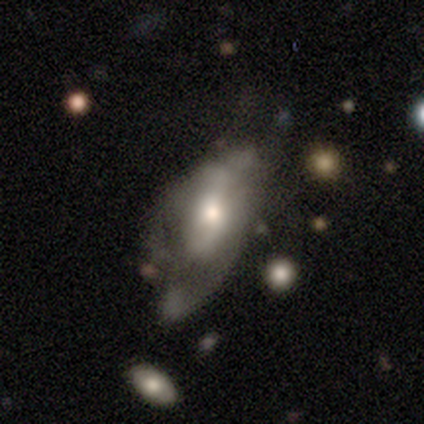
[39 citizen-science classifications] Overall: featured or disk (59%; smooth 41%). Edge-on disk: no (83%). Bar: no (74%). Spiral arms: no (53%; yes 47%). Bulge size: moderate (58%; large 21%). Merging: major disturbance (44%; minor disturbance 26%).